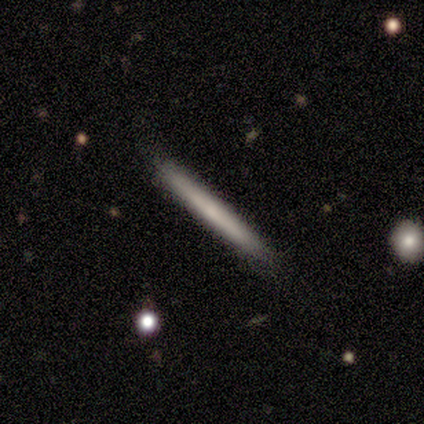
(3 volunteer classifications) Smooth or featured: smooth — 100%
How rounded: cigar-shaped — 100%
Merging: none — 100%